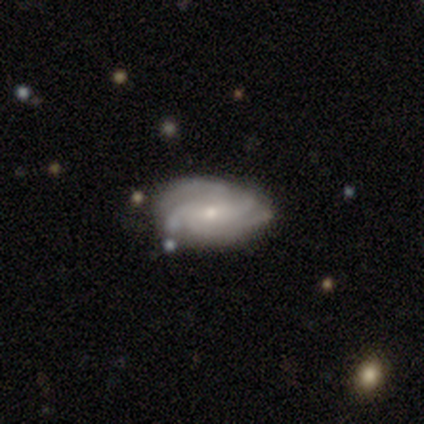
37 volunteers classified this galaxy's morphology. A featured or disk galaxy (78%) with no bar (52%), 4 (43%) tight (68%) spiral arms (97%) and a small central bulge (66%).

Vote fractions:
- Smooth or featured? featured or disk: 78% / smooth: 14% / star or artifact: 8%
- Edge-on disk? no: 100% / yes: 0%
- Bar? no: 52% / weak: 38% / strong: 10%
- Spiral arms? yes: 97% / no: 3%
- Spiral winding? tight: 68% / medium: 21% / loose: 11%
- Spiral arm count? 4: 43% / 2: 21% / can't tell: 18% / 3: 11% / more than 4: 7% / 1: 0%
- Bulge size? small: 66% / moderate: 31% / none: 3% / dominant: 0% / large: 0%
- Merging? none: 53% / minor disturbance: 44% / major disturbance: 3% / merger: 0%